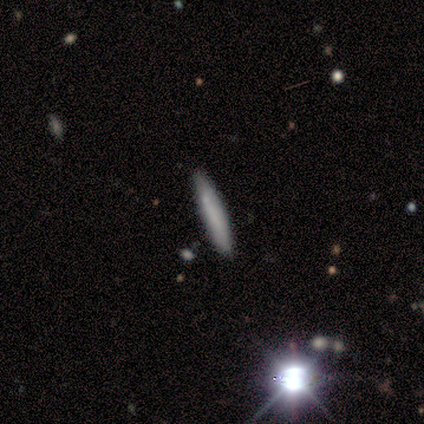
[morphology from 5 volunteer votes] Volunteers were most divided on "merging": none: 80%, minor disturbance: 20%, major disturbance: 0%, merger: 0%. More confident: smooth or featured — smooth (100%); how rounded — cigar-shaped (100%).